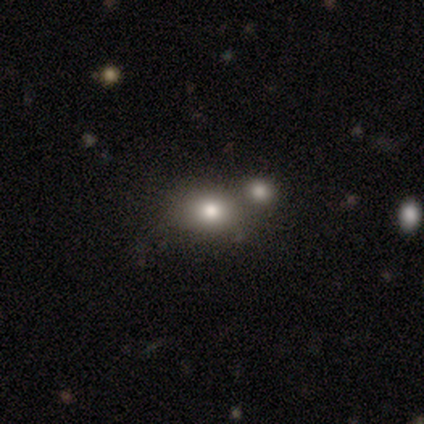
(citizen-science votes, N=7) Smooth or featured?
  - smooth: 86% *
  - star or artifact: 14%
  - featured or disk: 0%
How rounded?
  - round: 50% * (tied)
  - in between: 50% * (tied)
  - cigar-shaped: 0%
Merging?
  - none: 83% *
  - merger: 17%
  - minor disturbance: 0%
  - major disturbance: 0%